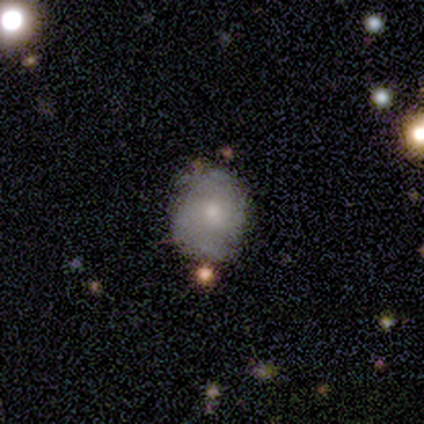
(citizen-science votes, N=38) Q: Smooth or featured?
A: featured or disk (53%); runner-up: smooth (37%)
Q: Edge-on disk?
A: no (95%); runner-up: yes (5%)
Q: Bar?
A: no (79%); runner-up: weak (21%)
Q: Spiral arms?
A: yes (68%); runner-up: no (32%)
Q: Spiral winding?
A: tight (62%); runner-up: medium (23%)
Q: Spiral arm count?
A: 2 (38%); tied with: can't tell (38%)
Q: Bulge size?
A: small (53%); runner-up: moderate (42%)
Q: Merging?
A: none (71%); runner-up: minor disturbance (29%)